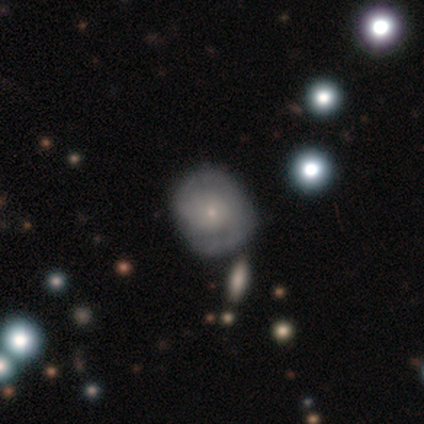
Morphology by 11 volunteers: Q: Smooth or featured?
A: featured or disk (73%); runner-up: smooth (18%)
Q: Edge-on disk?
A: no (100%)
Q: Bar?
A: no (75%); runner-up: strong (12%)
Q: Spiral arms?
A: yes (100%)
Q: Spiral winding?
A: medium (50%); runner-up: tight (25%)
Q: Spiral arm count?
A: 2 (75%); runner-up: 1 (25%)
Q: Bulge size?
A: small (75%); runner-up: moderate (25%)
Q: Merging?
A: none (80%); runner-up: minor disturbance (20%)